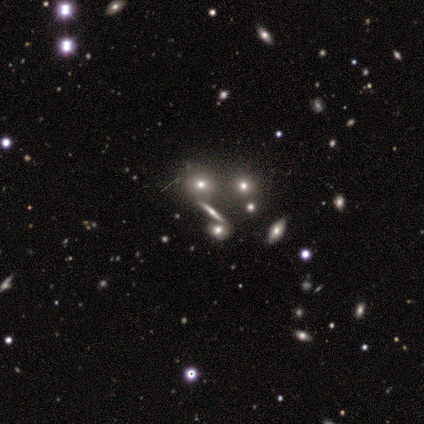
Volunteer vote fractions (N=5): This appears to be a smooth galaxy with no disk features (60%) that is cigar-shaped (67%). Merging: none (67%).